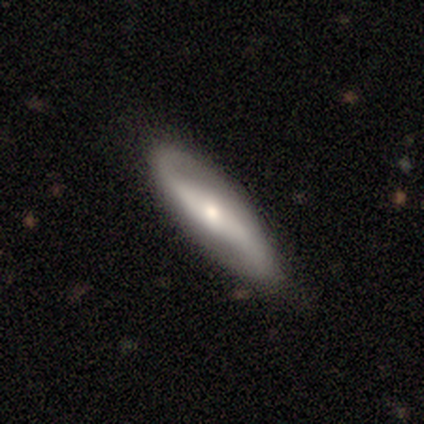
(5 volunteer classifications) Q: Smooth or featured?
A: featured or disk (100%)
Q: Edge-on disk?
A: no (100%)
Q: Bar?
A: weak (60%); runner-up: strong (20%)
Q: Spiral arms?
A: yes (80%); runner-up: no (20%)
Q: Spiral winding?
A: loose (75%); runner-up: medium (25%)
Q: Spiral arm count?
A: 2 (100%)
Q: Bulge size?
A: small (60%); runner-up: moderate (40%)
Q: Merging?
A: none (60%); runner-up: minor disturbance (40%)